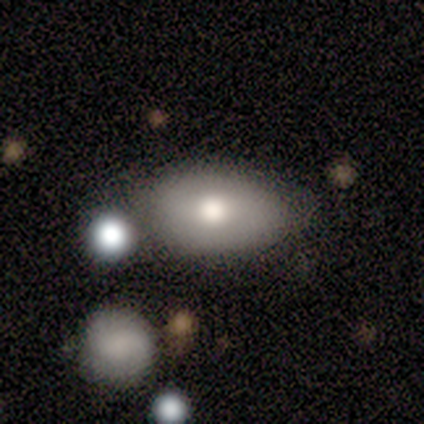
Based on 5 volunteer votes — Smooth or featured? smooth (80%)
How rounded? in between (50%)
Merging? none (75%)